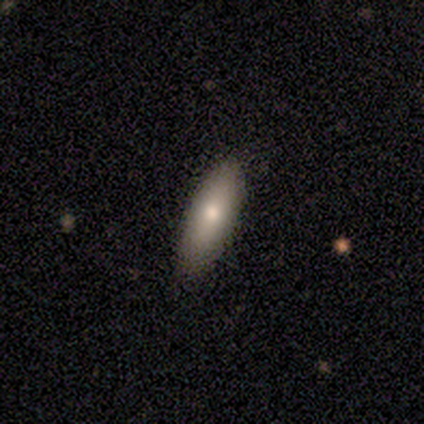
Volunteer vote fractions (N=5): smooth 100%, featured or disk 0%, star or artifact 0%. Down the decision tree: how rounded — in between (60%); merging — none (100%).